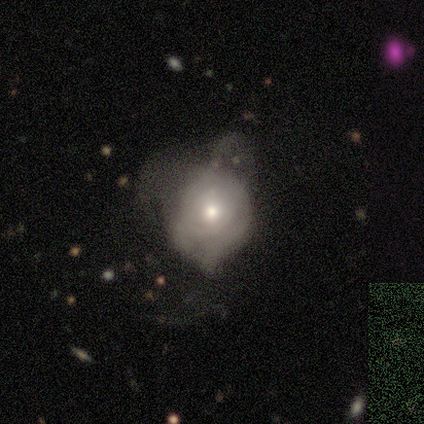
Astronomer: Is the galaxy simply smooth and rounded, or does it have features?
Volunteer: featured or disk — 70%.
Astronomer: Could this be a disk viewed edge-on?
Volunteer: no — 100%.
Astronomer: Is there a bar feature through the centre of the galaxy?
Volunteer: no — 71%.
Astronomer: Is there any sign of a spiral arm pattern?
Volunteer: no — 57% (runner-up: yes, 43%).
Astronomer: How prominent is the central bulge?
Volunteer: moderate — 43%, tied with small at 43%.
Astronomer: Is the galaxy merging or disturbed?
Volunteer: major disturbance — 56% (runner-up: none, 33%).